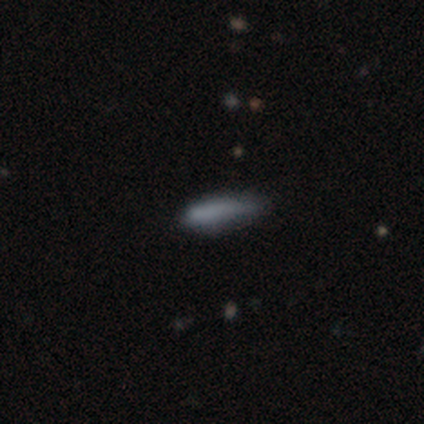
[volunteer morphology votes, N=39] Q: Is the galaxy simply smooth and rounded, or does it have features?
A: smooth — 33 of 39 (85%).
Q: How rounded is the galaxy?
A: cigar-shaped — 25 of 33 (76%).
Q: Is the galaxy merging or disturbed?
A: none — 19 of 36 (53%).